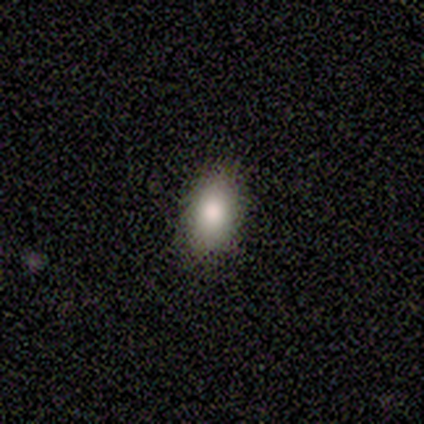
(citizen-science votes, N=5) Morphology: type=smooth (80%); roundness=in between (75%); merging=none (75%).